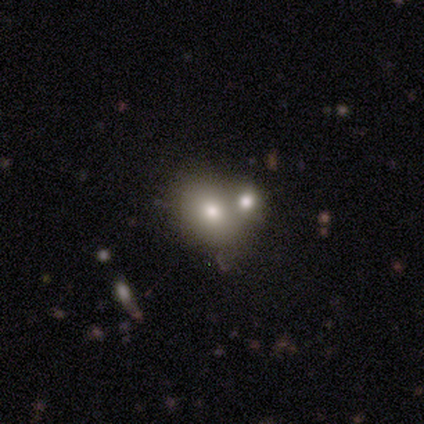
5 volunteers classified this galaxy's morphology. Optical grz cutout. It shows a smooth galaxy with no disk features (80%) that is round (75%). Merging: none (40%, tied with merger).